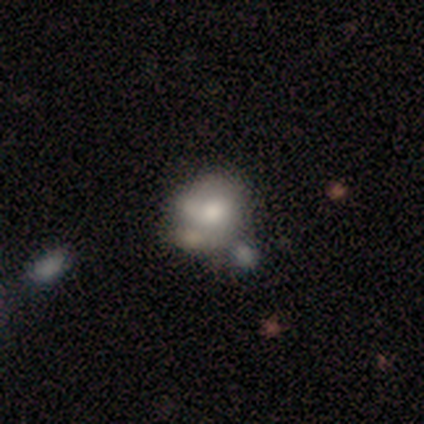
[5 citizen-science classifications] Smooth or featured: smooth — 80% (star or artifact — 20%)
How rounded: round — 50% (tied with in between — 50%)
Merging: minor disturbance — 50% (none — 25%)